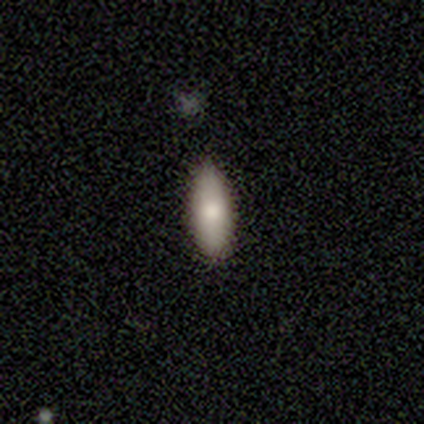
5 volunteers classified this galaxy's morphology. A smooth galaxy with no disk features (80%) that is in between round and cigar-shaped (75%).

Vote fractions:
- Smooth or featured? smooth: 80% / featured or disk: 20% / star or artifact: 0%
- How rounded? in between: 75% / cigar-shaped: 25% / round: 0%
- Merging? none: 60% / minor disturbance: 40% / major disturbance: 0% / merger: 0%